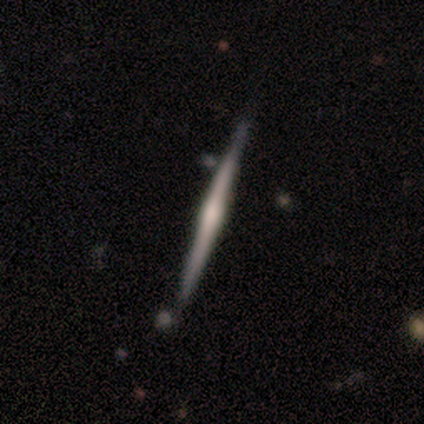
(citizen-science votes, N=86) A featured or disk galaxy (80%) viewed edge-on (100%) with a rounded central bulge (67%).

Vote fractions:
- Smooth or featured? featured or disk: 80% / smooth: 19% / star or artifact: 1%
- Edge-on disk? yes: 100% / no: 0%
- Edge-on bulge? rounded: 67% / boxy: 26% / none: 7%
- Merging? none: 81% / minor disturbance: 13% / merger: 6% / major disturbance: 0%